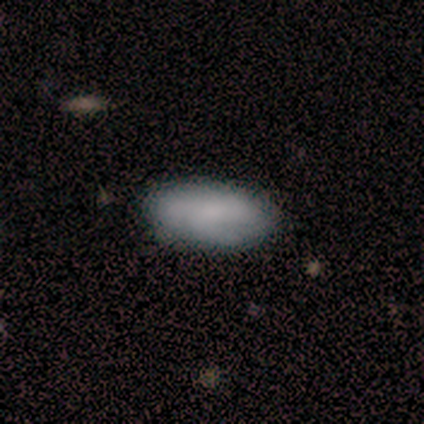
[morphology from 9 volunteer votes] This appears to be a smooth galaxy with no disk features (78%) that is in between round and cigar-shaped (100%). Merging: none (67%).